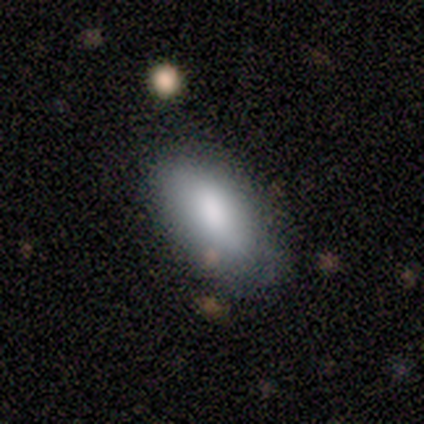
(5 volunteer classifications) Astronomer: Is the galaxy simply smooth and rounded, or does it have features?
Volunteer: smooth — 100%.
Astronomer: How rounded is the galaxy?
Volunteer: in between — 100%.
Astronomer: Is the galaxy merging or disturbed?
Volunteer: none — 80%.